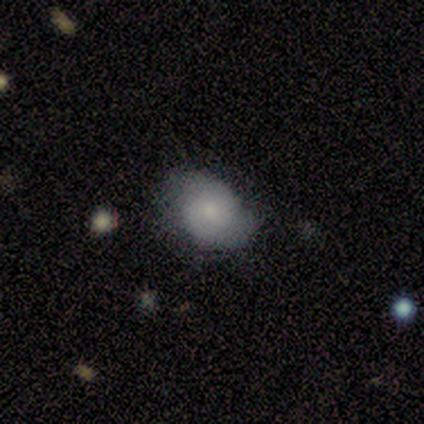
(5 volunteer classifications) A smooth galaxy with no disk features (60%) that is in between round and cigar-shaped (67%).

Vote fractions:
- Smooth or featured? smooth: 60% / featured or disk: 40% / star or artifact: 0%
- How rounded? in between: 67% / round: 33% / cigar-shaped: 0%
- Merging? none: 80% / minor disturbance: 20% / major disturbance: 0% / merger: 0%